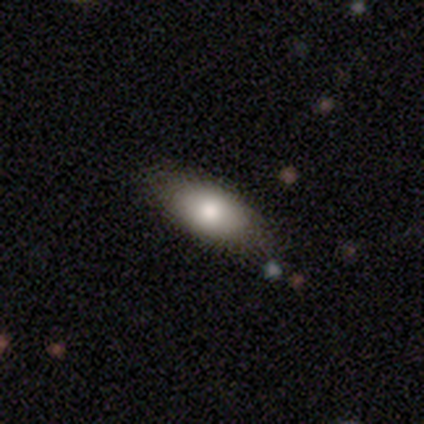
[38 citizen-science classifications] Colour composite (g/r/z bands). It shows a smooth galaxy with no disk features (74%) that is in between round and cigar-shaped (89%). Merging: none (64%).